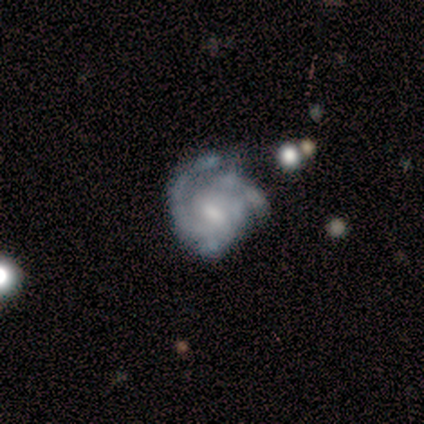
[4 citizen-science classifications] Smooth or featured: featured or disk — 50% (smooth — 25%)
Edge-on disk: no — 100%
Bar: no — 100%
Spiral arms: yes — 100%
Spiral winding: tight — 100%
Spiral arm count: can't tell — 100%
Bulge size: moderate — 50% (tied with small — 50%)
Merging: none — 67% (minor disturbance — 33%)